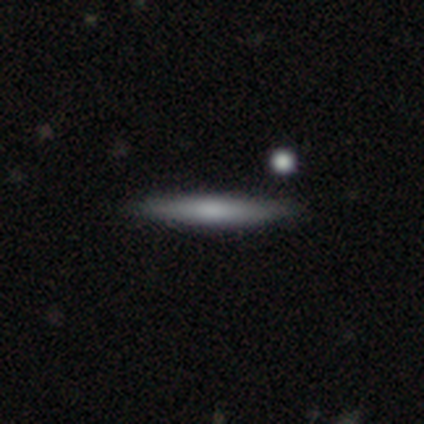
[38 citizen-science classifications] smooth 63%, featured or disk 18%, star or artifact 18%. Down the decision tree: how rounded — cigar-shaped (96%); merging — none (81%).